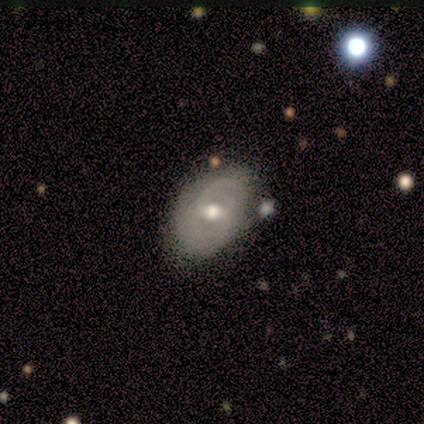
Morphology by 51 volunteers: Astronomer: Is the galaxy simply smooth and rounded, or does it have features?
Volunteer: featured or disk — 78%.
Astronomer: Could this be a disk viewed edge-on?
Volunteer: no — 100%.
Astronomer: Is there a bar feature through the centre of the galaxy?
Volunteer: weak — 72%.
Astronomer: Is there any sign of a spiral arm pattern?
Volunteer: yes — 88%.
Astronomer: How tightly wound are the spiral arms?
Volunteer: medium — 49% (runner-up: tight, 31%).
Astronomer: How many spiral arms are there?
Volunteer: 2 — 34% (runner-up: 1, 29%).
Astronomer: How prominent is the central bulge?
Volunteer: moderate — 78%.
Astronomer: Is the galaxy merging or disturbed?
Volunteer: none — 59%.